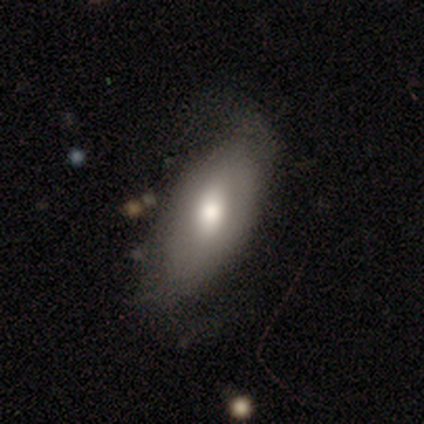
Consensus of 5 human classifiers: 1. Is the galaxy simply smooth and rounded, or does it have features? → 80% smooth, 20% featured or disk, 0% star or artifact.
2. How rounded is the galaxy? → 100% in between, 0% round, 0% cigar-shaped.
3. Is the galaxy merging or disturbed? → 100% none, 0% minor disturbance, 0% major disturbance, 0% merger.